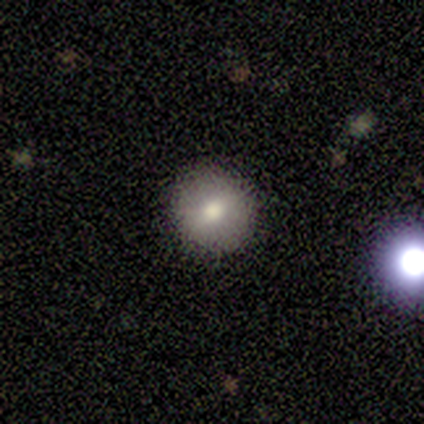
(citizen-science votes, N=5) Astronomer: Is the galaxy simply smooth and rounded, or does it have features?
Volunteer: smooth — 60% (runner-up: featured or disk, 40%).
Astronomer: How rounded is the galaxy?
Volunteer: round — 100%.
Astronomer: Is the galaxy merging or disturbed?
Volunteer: none — 100%.